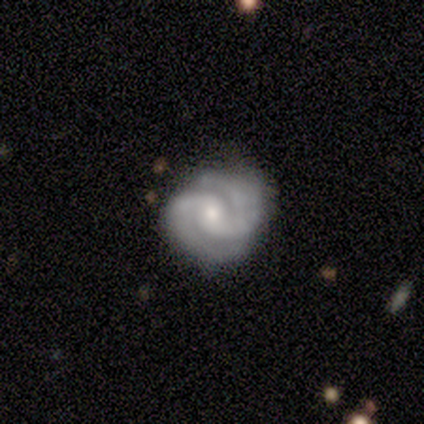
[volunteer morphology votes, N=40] Smooth or featured? featured or disk (88%)
Edge-on disk? no (97%)
Bar? no (65%)
Spiral arms? yes (97%)
Spiral winding? tight (82%)
Spiral arm count? 2 (85%)
Bulge size? moderate (50%)
Merging? none (63%)